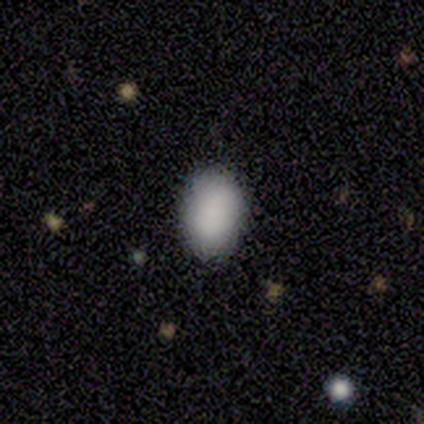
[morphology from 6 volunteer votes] smooth 50%, star or artifact 33%, featured or disk 17%. Down the decision tree: how rounded — in between (100%); merging — none (100%).